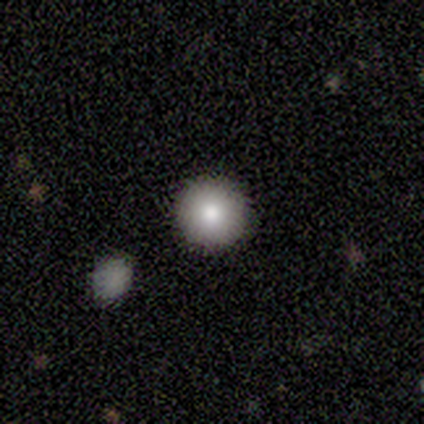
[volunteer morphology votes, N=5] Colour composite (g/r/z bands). It shows a smooth galaxy with no disk features (100%) that is round (100%). Merging: none (80%).